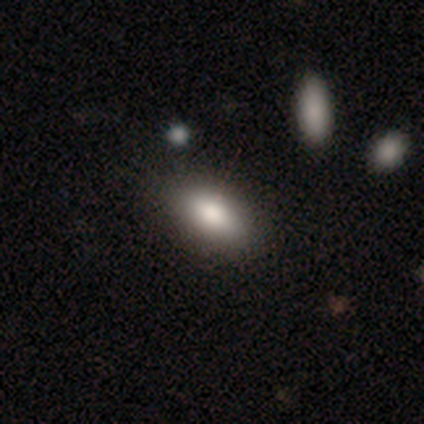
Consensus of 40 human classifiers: smooth 80%, featured or disk 15%, star or artifact 5%. Down the decision tree: how rounded — in between (91%); merging — none (66%).